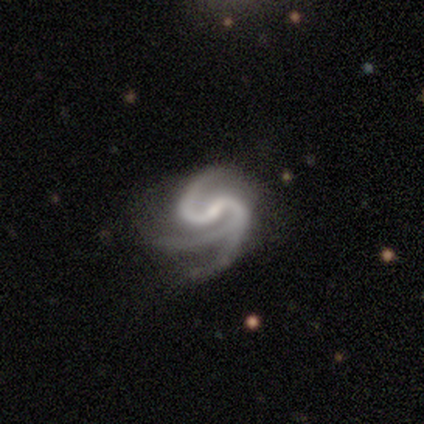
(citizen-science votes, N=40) Smooth or featured?
  - featured or disk: 100% *
  - smooth: 0%
  - star or artifact: 0%
Edge-on disk?
  - no: 95% *
  - yes: 5%
Bar?
  - weak: 61% *
  - no: 21%
  - strong: 18%
Spiral arms?
  - yes: 100% *
  - no: 0%
Spiral winding?
  - medium: 63% *
  - loose: 21%
  - tight: 16%
Spiral arm count?
  - 3: 45% *
  - 2: 42%
  - 1: 5%
  - 4: 3%
  - more than 4: 3%
  - can't tell: 3%
Bulge size?
  - small: 53% *
  - none: 32%
  - moderate: 16%
  - dominant: 0%
  - large: 0%
Merging?
  - none: 42% *
  - minor disturbance: 35%
  - major disturbance: 22%
  - merger: 0%